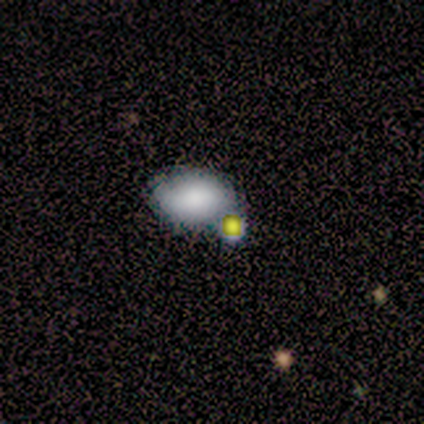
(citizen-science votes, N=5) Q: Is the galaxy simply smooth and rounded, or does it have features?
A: smooth — 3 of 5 (60%).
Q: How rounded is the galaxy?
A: in between — 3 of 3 (100%).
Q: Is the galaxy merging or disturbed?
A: none — 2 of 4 (50%, tied with minor disturbance).